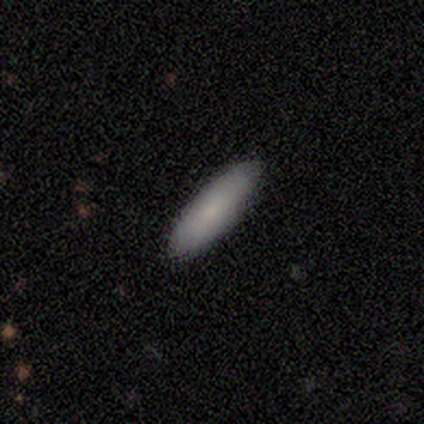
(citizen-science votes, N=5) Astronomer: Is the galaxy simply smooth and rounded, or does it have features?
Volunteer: smooth — 100%.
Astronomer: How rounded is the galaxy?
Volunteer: cigar-shaped — 60% (runner-up: in between, 40%).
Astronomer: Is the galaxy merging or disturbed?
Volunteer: none — 80%.